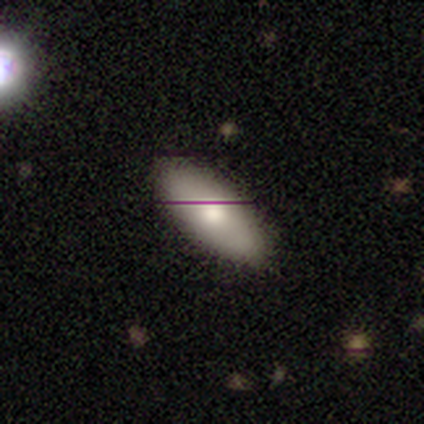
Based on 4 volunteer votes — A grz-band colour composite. It shows a smooth galaxy with no disk features (50%, tied with featured or disk) that is in between round and cigar-shaped (100%). Merging: none (100%).